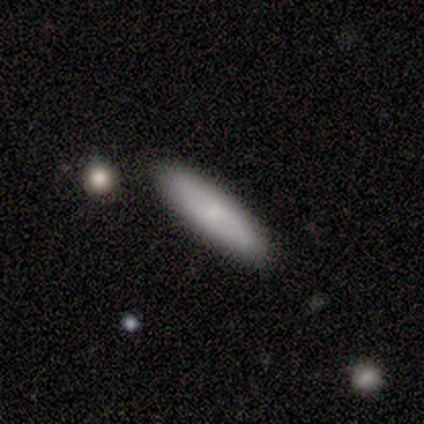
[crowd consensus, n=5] smooth_or_featured: smooth (p=0.80) [alt: star or artifact p=0.20]
how_rounded: cigar-shaped (p=0.75) [alt: in between p=0.25]
merging: none (p=1.00)